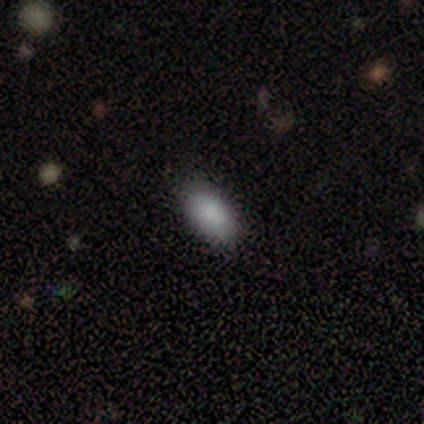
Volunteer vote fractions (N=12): This is clearly a smooth galaxy (92%). How rounded: clearly in between (91%). Merging: clearly none (100%).